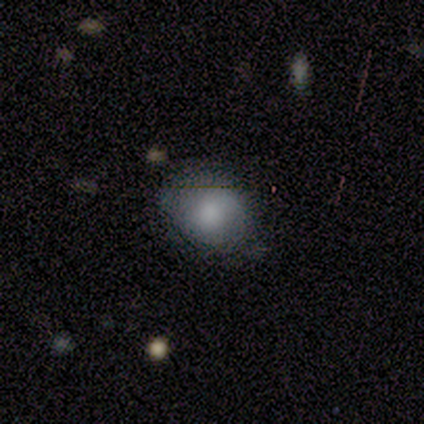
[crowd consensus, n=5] Volunteers were most divided on "merging": none: 60%, minor disturbance: 20%, major disturbance: 20%, merger: 0%. More confident: smooth or featured — smooth (100%); how rounded — in between (80%).